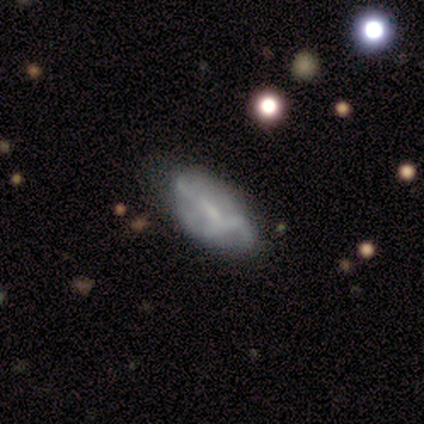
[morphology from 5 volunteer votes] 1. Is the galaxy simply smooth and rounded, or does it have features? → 100% smooth, 0% featured or disk, 0% star or artifact.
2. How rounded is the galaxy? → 80% in between, 20% cigar-shaped, 0% round.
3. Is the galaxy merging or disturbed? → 60% none, 20% minor disturbance, 20% major disturbance, 0% merger.